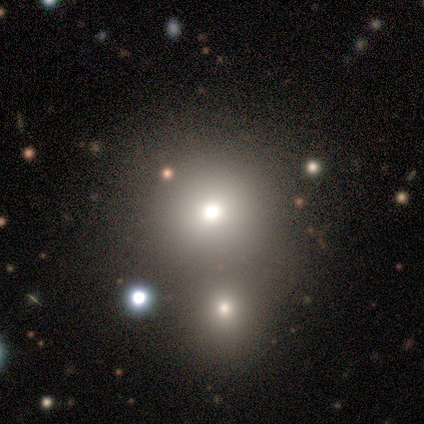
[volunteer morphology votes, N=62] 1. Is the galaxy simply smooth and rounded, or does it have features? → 65% smooth, 19% star or artifact, 16% featured or disk.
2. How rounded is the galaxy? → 90% round, 10% in between, 0% cigar-shaped.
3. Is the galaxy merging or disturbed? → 44% merger, 26% none, 18% minor disturbance, 2% major disturbance.